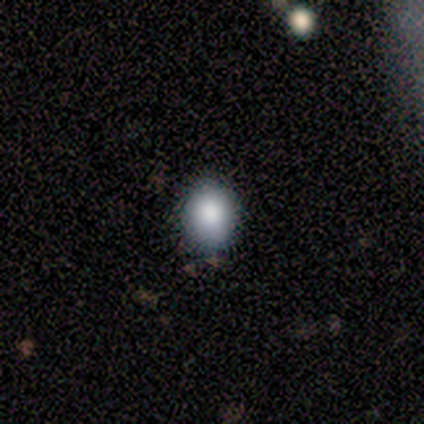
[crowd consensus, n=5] This is clearly a smooth galaxy (80%). How rounded: possibly round (50%, tied with in between). Merging: likely none (75%).